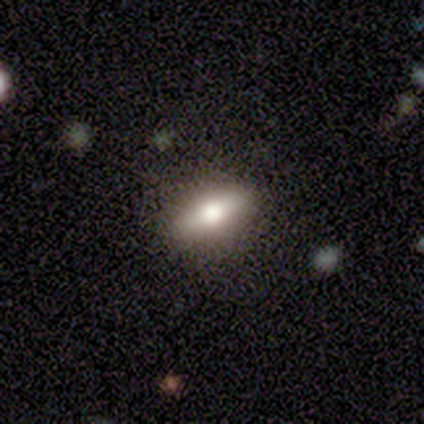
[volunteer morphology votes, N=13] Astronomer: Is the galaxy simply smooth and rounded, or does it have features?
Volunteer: featured or disk — 69%.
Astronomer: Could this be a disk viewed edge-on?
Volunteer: yes — 78%.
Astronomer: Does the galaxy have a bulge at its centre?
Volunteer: rounded — 86%.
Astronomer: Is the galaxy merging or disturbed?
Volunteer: none — 92%.